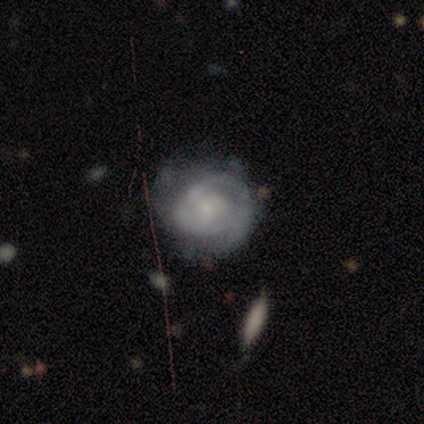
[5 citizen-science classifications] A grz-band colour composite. It shows a featured or disk galaxy (80%) with no bar (75%), 2 (75%) medium (75%) spiral arms (100%) and a small central bulge (75%). Merging: minor disturbance (60%).